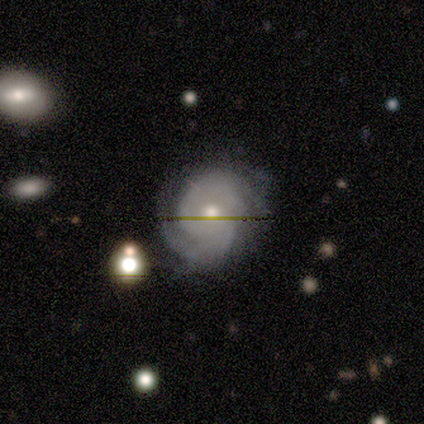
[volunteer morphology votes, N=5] smooth_or_featured: featured or disk (p=0.80) [alt: star or artifact p=0.20]
disk_edge_on: no (p=1.00)
bar: no (p=1.00)
has_spiral_arms: yes (p=1.00)
spiral_winding: tight (p=1.00)
spiral_arm_count: can't tell (p=0.50) [alt: 1 p=0.25]
bulge_size: small (p=0.75) [alt: moderate p=0.25]
merging: minor disturbance (p=0.50) [alt: none p=0.25]